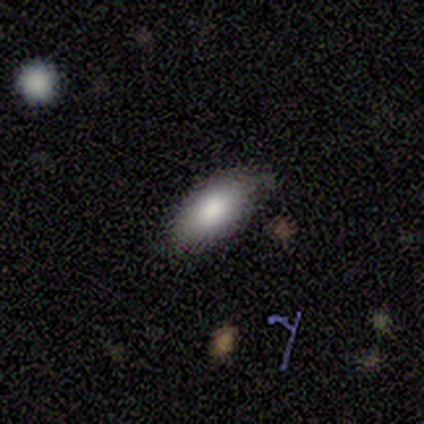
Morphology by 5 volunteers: Smooth or featured: smooth — 100%
How rounded: in between — 80% (cigar-shaped — 20%)
Merging: none — 40% (tied with minor disturbance — 40%)